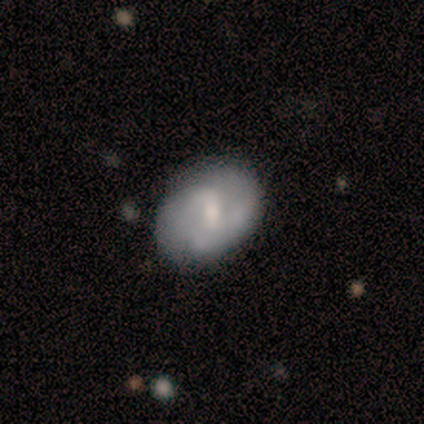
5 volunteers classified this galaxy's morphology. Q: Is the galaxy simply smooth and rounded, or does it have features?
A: featured or disk — 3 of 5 (60%).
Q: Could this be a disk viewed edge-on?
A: no — 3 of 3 (100%).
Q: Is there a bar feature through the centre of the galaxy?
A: weak — 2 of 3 (67%).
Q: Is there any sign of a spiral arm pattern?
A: yes — 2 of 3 (67%).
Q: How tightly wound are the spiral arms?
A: loose — 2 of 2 (100%).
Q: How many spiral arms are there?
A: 2 — 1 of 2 (50%, tied with can't tell).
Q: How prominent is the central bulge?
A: moderate — 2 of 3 (67%).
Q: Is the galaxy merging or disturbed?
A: none — 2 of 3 (67%).